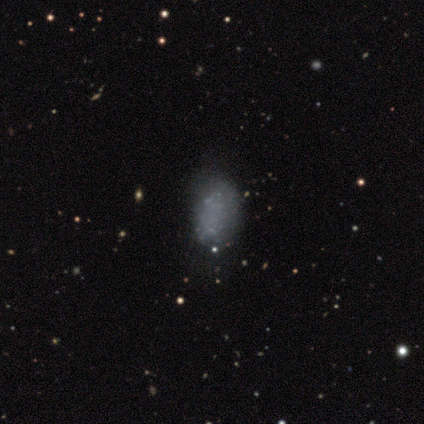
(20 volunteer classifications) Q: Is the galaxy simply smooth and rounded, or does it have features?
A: smooth — 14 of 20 (70%).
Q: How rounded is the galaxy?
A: in between — 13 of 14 (93%).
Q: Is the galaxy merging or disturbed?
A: none — 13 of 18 (72%).